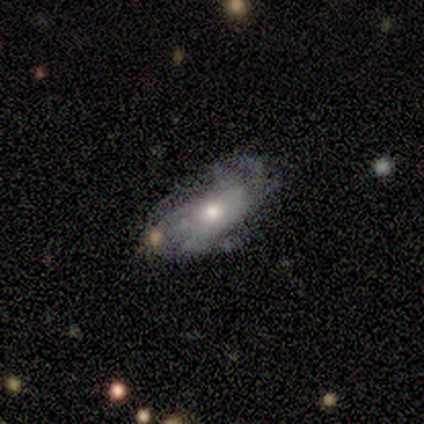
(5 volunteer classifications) A featured or disk galaxy (80%) with no bar (100%), tight (67%) spiral arms (75%) and a moderate central bulge (75%). Merging: none (60%).